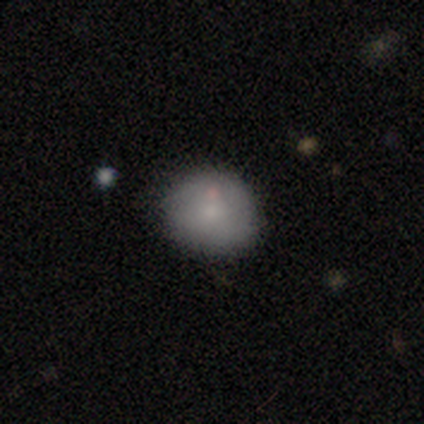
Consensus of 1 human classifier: Consensus on every question: smooth or featured — smooth (100%); how rounded — round (100%); merging — none (100%).